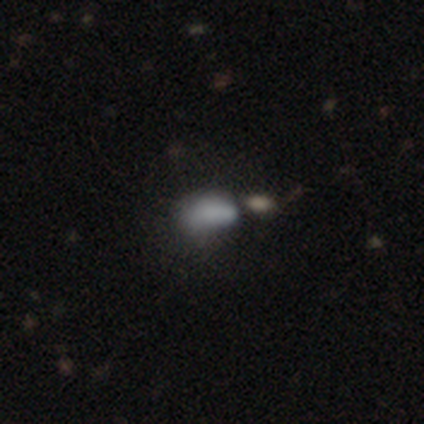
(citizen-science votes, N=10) Smooth or featured: smooth — 60% (featured or disk — 20%)
How rounded: in between — 100%
Merging: none — 38% (major disturbance — 25%)